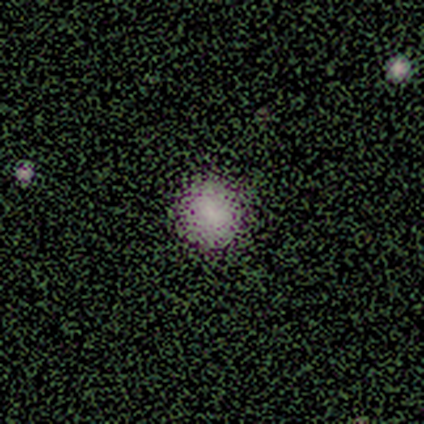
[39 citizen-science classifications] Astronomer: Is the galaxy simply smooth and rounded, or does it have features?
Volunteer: smooth — 79%.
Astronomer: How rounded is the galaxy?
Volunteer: round — 94%.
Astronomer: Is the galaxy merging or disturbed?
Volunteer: none — 58%.